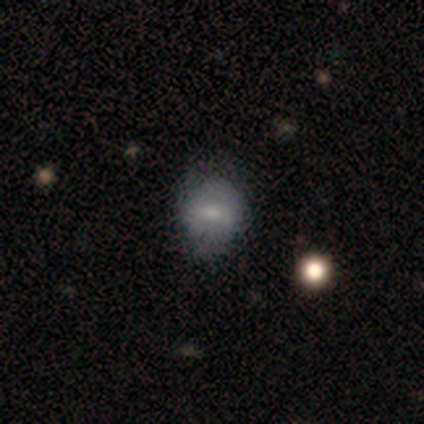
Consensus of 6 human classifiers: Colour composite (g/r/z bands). It shows a smooth galaxy with no disk features (67%) that is in between round and cigar-shaped (75%). Merging: minor disturbance (50%).